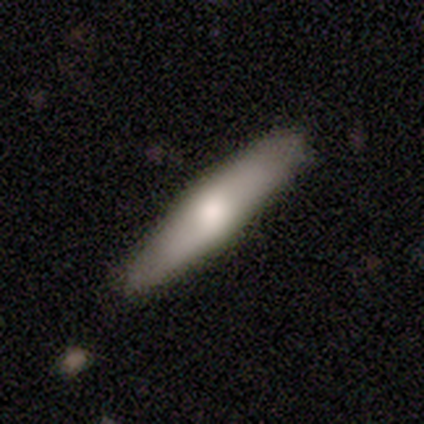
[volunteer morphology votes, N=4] smooth-or-featured: smooth: 50% (tied) | featured or disk: 50% (tied) | star or artifact: 0%
  how-rounded: in between: 50% (tied) | cigar-shaped: 50% (tied) | round: 0%
  merging: none: 75% | major disturbance: 25% | minor disturbance: 0% | merger: 0%